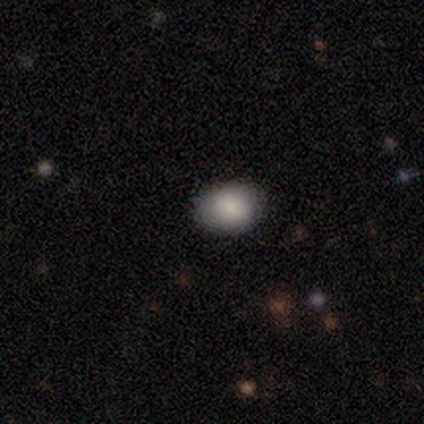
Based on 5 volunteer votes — A smooth galaxy with no disk features (100%) that is in between round and cigar-shaped (80%).

Vote fractions:
- Smooth or featured? smooth: 100% / featured or disk: 0% / star or artifact: 0%
- How rounded? in between: 80% / round: 20% / cigar-shaped: 0%
- Merging? none: 100% / minor disturbance: 0% / major disturbance: 0% / merger: 0%